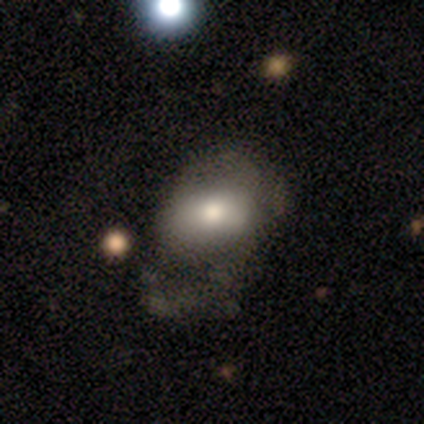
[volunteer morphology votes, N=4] featured or disk 75%, smooth 25%, star or artifact 0%. Down the decision tree: edge-on disk — no (100%); bar — no (100%); spiral arms — no (100%); bulge size — moderate (67%); merging — none (50%, tied with major disturbance).